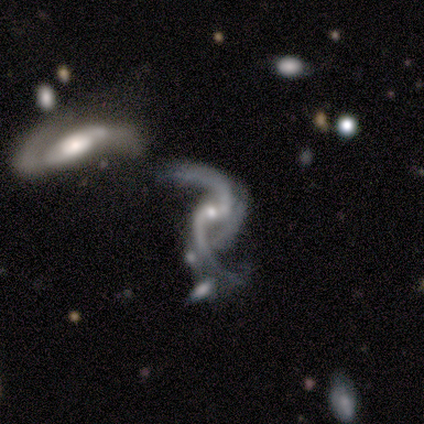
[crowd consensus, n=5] smooth-or-featured: featured or disk: 100% | smooth: 0% | star or artifact: 0%
  disk-edge-on: no: 100% | yes: 0%
    bar: no: 80% | weak: 20% | strong: 0%
    has-spiral-arms: yes: 100% | no: 0%
      spiral-winding: loose: 80% | medium: 20% | tight: 0%
      spiral-arm-count: 2: 100% | 1: 0% | 3: 0% | 4: 0% | more than 4: 0% | can't tell: 0%
    bulge-size: small: 100% | dominant: 0% | large: 0% | moderate: 0% | none: 0%
  merging: none: 40% (tied) | merger: 40% (tied) | minor disturbance: 20% | major disturbance: 0%